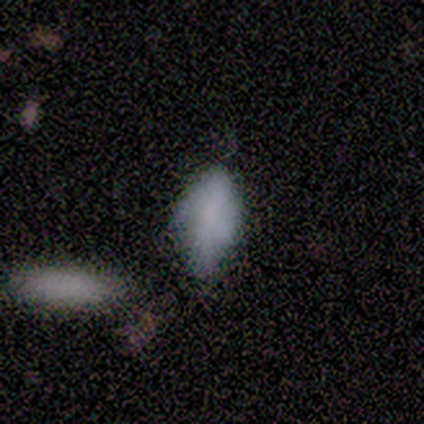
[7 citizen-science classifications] Volunteers were most divided on "merging": none: 67%, minor disturbance: 17%, major disturbance: 17%, merger: 0%. More confident: how rounded — in between (100%); smooth or featured — smooth (71%).